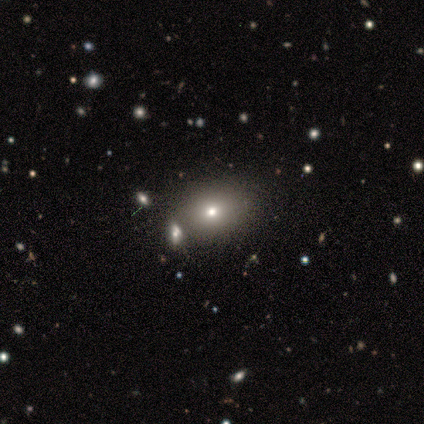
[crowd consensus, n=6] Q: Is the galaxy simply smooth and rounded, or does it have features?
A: smooth — 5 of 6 (83%).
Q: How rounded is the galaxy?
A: in between — 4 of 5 (80%).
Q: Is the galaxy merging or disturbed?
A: none — 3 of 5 (60%).